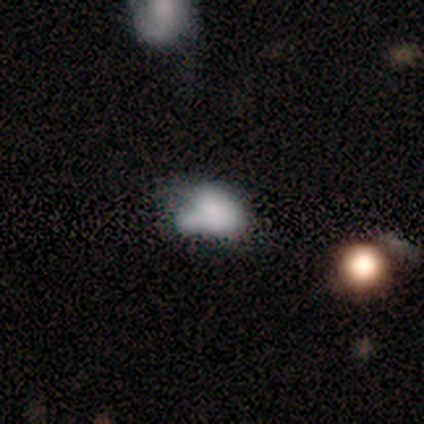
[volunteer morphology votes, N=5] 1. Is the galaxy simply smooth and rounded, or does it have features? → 100% smooth, 0% featured or disk, 0% star or artifact.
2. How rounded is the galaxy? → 100% in between, 0% round, 0% cigar-shaped.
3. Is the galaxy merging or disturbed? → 60% merger, 20% none, 20% minor disturbance, 0% major disturbance.